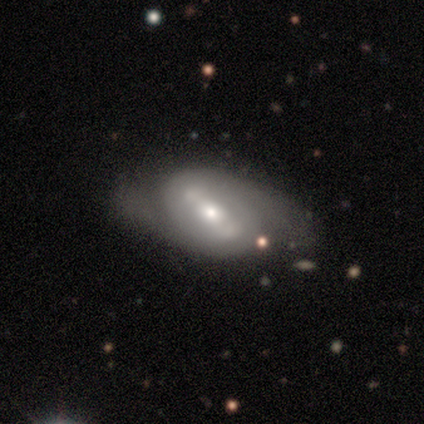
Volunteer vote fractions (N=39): This appears to be a featured or disk galaxy (67%) with a strong bar (50%), 2 (72%) loose (44%) spiral arms (75%) and a moderate central bulge (54%). Merging: none (67%).